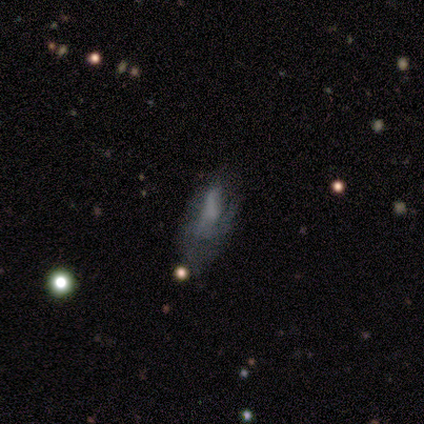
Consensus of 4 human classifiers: Smooth or featured? featured or disk (50%)
Edge-on disk? no (100%)
Bar? no (100%)
Spiral arms? yes (50%, tied with no)
Spiral winding? loose (100%)
Spiral arm count? 3 (100%)
Bulge size? none (100%)
Merging? major disturbance (67%)